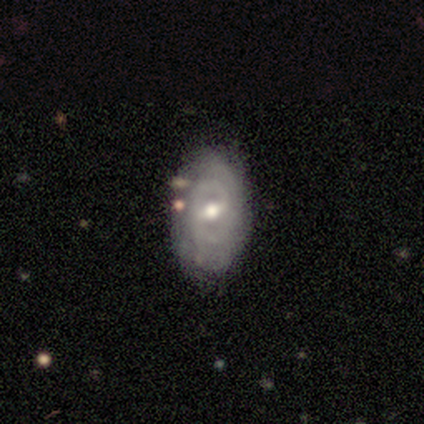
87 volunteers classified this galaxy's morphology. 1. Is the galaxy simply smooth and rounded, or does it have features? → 82% featured or disk, 16% smooth, 2% star or artifact.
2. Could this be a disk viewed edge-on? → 96% no, 4% yes.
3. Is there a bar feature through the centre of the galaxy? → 66% weak, 21% no, 13% strong.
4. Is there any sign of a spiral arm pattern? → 79% yes, 21% no.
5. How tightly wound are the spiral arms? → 65% tight, 26% medium, 9% loose.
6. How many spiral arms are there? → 54% 2, 28% can't tell, 7% 1, 7% 3, 4% 4, 0% more than 4.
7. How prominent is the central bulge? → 81% moderate, 13% small, 3% large, 1% dominant, 1% none.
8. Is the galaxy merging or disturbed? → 78% none, 16% minor disturbance, 5% major disturbance, 1% merger.